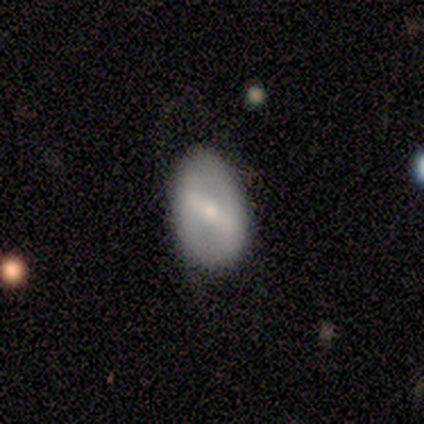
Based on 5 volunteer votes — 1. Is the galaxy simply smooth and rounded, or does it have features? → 60% featured or disk, 40% smooth, 0% star or artifact.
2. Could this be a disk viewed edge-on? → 100% no, 0% yes.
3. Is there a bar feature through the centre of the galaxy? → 100% strong, 0% weak, 0% no.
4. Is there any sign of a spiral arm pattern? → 67% no, 33% yes.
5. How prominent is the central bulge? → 100% small, 0% dominant, 0% large, 0% moderate, 0% none.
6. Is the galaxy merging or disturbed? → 100% none, 0% minor disturbance, 0% major disturbance, 0% merger.